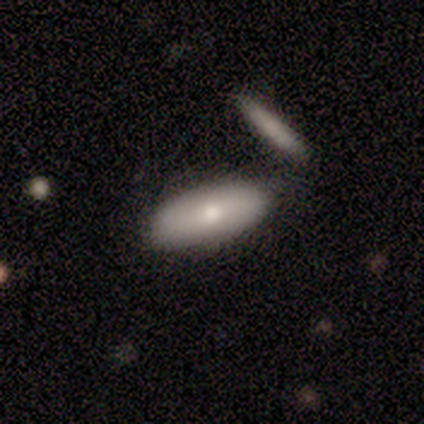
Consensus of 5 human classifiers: smooth_or_featured: featured or disk (p=0.60) [alt: smooth p=0.40]
disk_edge_on: no (p=0.67) [alt: yes p=0.33]
bar: no (p=1.00)
has_spiral_arms: no (p=1.00)
bulge_size: moderate (p=0.50) [tied with: small p=0.50]
merging: none (p=0.60) [alt: minor disturbance p=0.20]